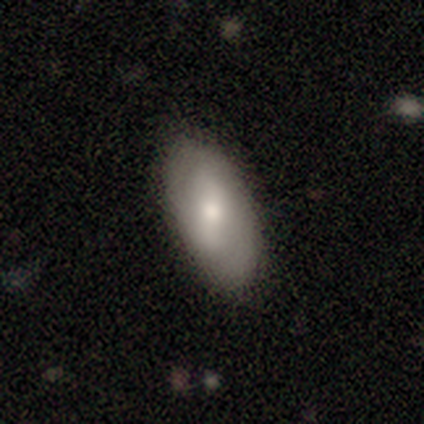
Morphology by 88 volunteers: A smooth galaxy with no disk features (69%) that is in between round and cigar-shaped (92%). Merging: none (82%).